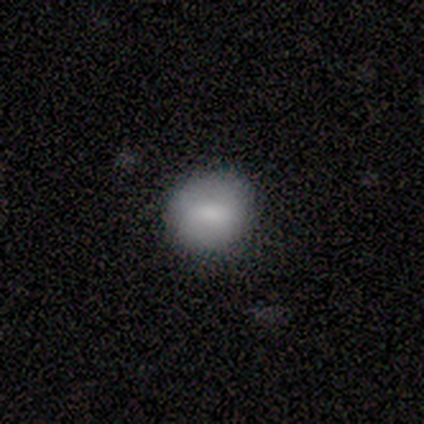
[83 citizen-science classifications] Smooth or featured? smooth (81%)
How rounded? round (84%)
Merging? none (78%)